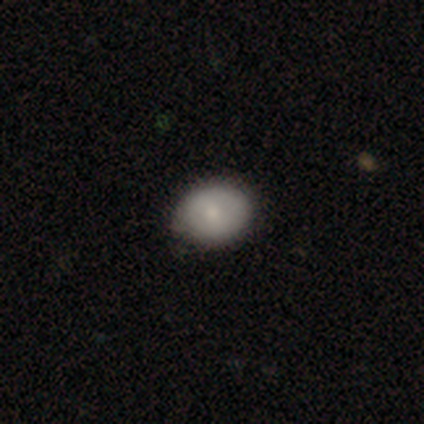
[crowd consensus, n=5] A smooth galaxy with no disk features (100%) that is round (100%). Merging: none (60%).